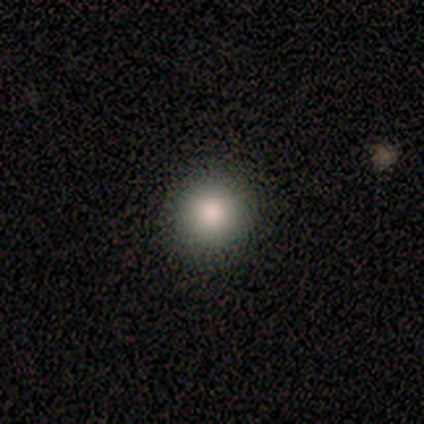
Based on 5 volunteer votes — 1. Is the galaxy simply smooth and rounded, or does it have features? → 100% smooth, 0% featured or disk, 0% star or artifact.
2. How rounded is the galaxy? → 100% round, 0% in between, 0% cigar-shaped.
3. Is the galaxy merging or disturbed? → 100% none, 0% minor disturbance, 0% major disturbance, 0% merger.